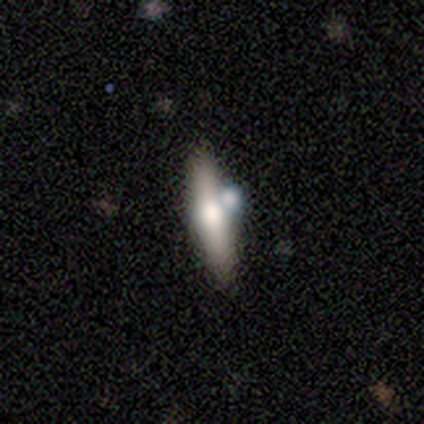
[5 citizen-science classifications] Smooth or featured? smooth (80%)
How rounded? cigar-shaped (75%)
Merging? none (40%, tied with merger)